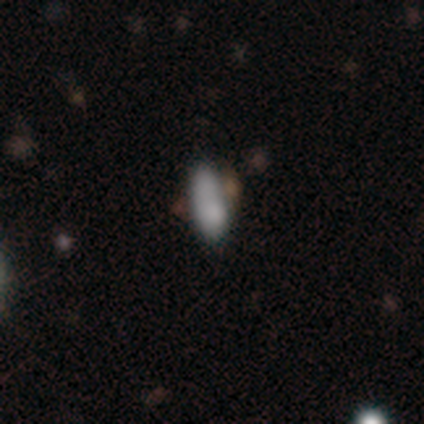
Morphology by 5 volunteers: smooth-or-featured: smooth: 100% | featured or disk: 0% | star or artifact: 0%
  how-rounded: in between: 80% | round: 20% | cigar-shaped: 0%
  merging: minor disturbance: 40% | none: 20% | major disturbance: 20% | merger: 20%